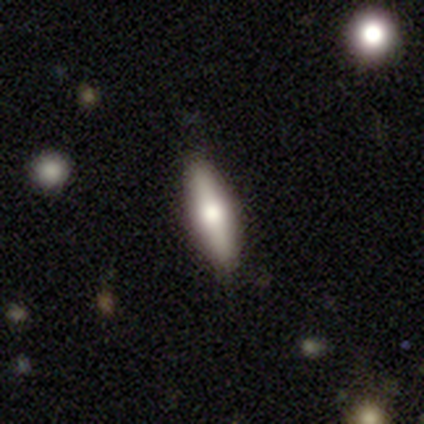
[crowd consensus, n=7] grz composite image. It shows a smooth galaxy with no disk features (43%, tied with featured or disk) that is cigar-shaped (67%). Merging: none (83%).